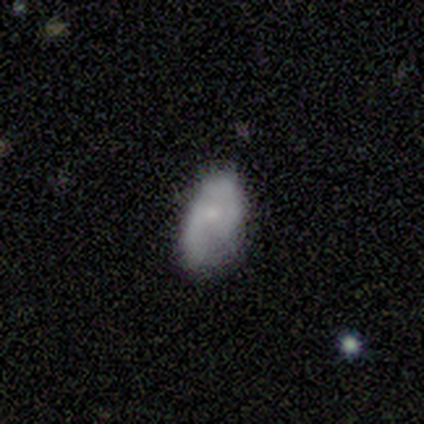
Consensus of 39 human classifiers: A smooth galaxy with no disk features (56%) that is in between round and cigar-shaped (100%).

Vote fractions:
- Smooth or featured? smooth: 56% / featured or disk: 38% / star or artifact: 5%
- How rounded? in between: 100% / round: 0% / cigar-shaped: 0%
- Merging? none: 43% / minor disturbance: 35% / major disturbance: 22% / merger: 0%